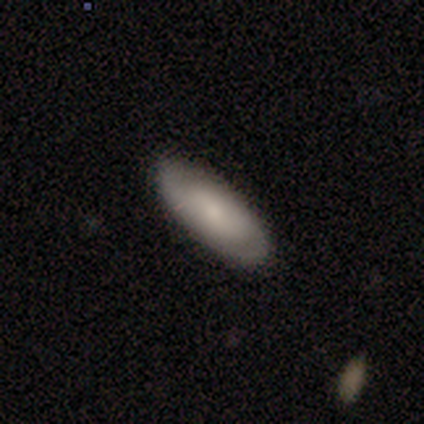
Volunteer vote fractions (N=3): smooth-or-featured: smooth: 33% (tied) | featured or disk: 33% (tied) | star or artifact: 33% (tied)
  how-rounded: in between: 100% | round: 0% | cigar-shaped: 0%
  merging: none: 100% | minor disturbance: 0% | major disturbance: 0% | merger: 0%